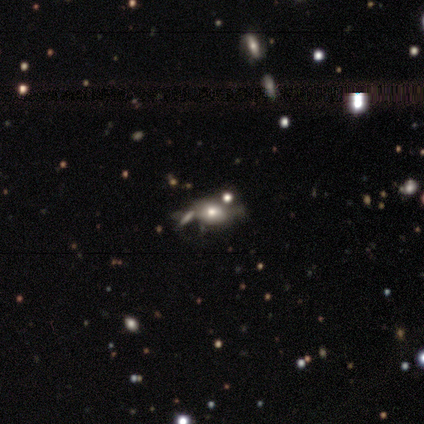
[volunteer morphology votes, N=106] Volunteers were most divided on "merging": none: 36%, merger: 27%, major disturbance: 20%, minor disturbance: 17%. More confident: how rounded — in between (77%); smooth or featured — smooth (54%).